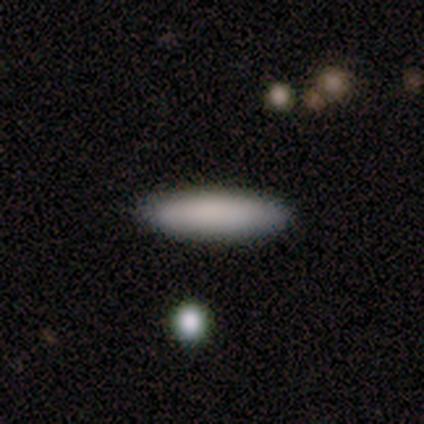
Smooth or featured?
  - smooth: 80% *
  - star or artifact: 20%
  - featured or disk: 0%
How rounded?
  - in between: 50% * (tied)
  - cigar-shaped: 50% * (tied)
  - round: 0%
Merging?
  - none: 100% *
  - minor disturbance: 0%
  - major disturbance: 0%
  - merger: 0%